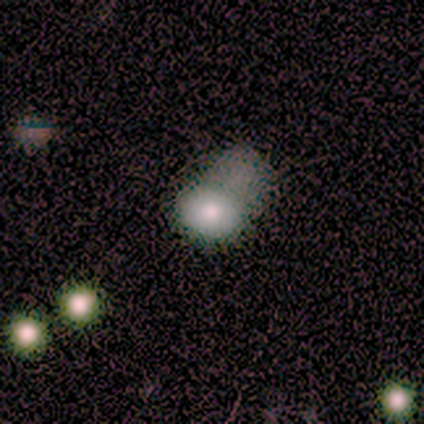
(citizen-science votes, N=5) A smooth galaxy with no disk features (100%) that is in between round and cigar-shaped (60%).

Vote fractions:
- Smooth or featured? smooth: 100% / featured or disk: 0% / star or artifact: 0%
- How rounded? in between: 60% / round: 40% / cigar-shaped: 0%
- Merging? major disturbance: 80% / none: 20% / minor disturbance: 0% / merger: 0%